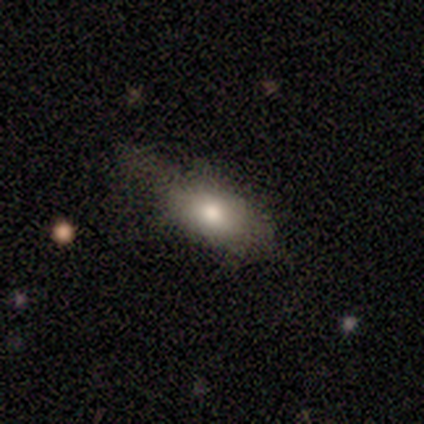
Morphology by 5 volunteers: smooth-or-featured: smooth: 80% | featured or disk: 20% | star or artifact: 0%
  how-rounded: in between: 75% | cigar-shaped: 25% | round: 0%
  merging: none: 80% | minor disturbance: 20% | major disturbance: 0% | merger: 0%